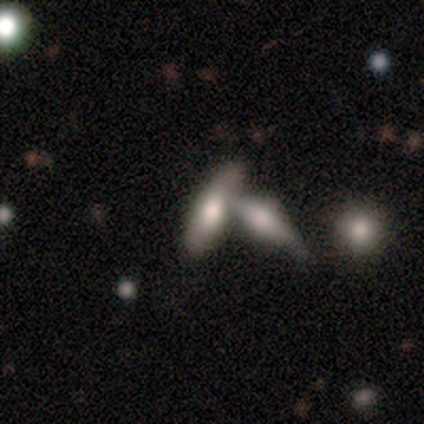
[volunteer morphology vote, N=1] A smooth galaxy with no disk features (100%) that is in between round and cigar-shaped (100%).

Vote fractions:
- Smooth or featured? smooth: 100% / featured or disk: 0% / star or artifact: 0%
- How rounded? in between: 100% / round: 0% / cigar-shaped: 0%
- Merging? none: 100% / minor disturbance: 0% / major disturbance: 0% / merger: 0%